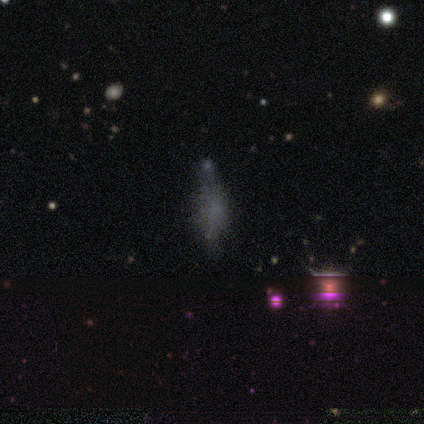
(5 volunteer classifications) Q: Smooth or featured?
A: smooth (60%); runner-up: featured or disk (20%)
Q: How rounded?
A: cigar-shaped (100%)
Q: Merging?
A: none (100%)